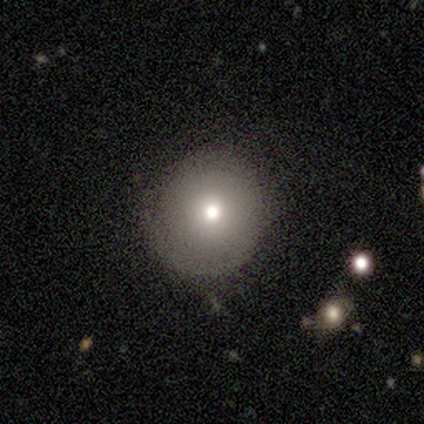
Smooth or featured? 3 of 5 (60%) said smooth. How rounded? 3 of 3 (100%) said round. Merging? 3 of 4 (75%) said none.